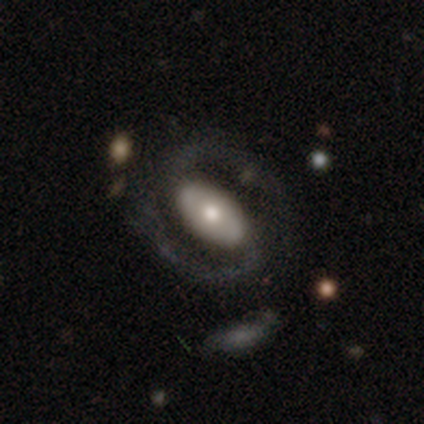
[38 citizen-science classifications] A featured or disk galaxy (82%) with a strong bar (47%), 2 (96%) medium (63%) spiral arms (90%) and a moderate central bulge (47%).

Vote fractions:
- Smooth or featured? featured or disk: 82% / smooth: 18% / star or artifact: 0%
- Edge-on disk? no: 97% / yes: 3%
- Bar? strong: 47% / no: 40% / weak: 13%
- Spiral arms? yes: 90% / no: 10%
- Spiral winding? medium: 63% / tight: 19% / loose: 19%
- Spiral arm count? 2: 96% / 1: 4% / 3: 0% / 4: 0% / more than 4: 0% / can't tell: 0%
- Bulge size? moderate: 47% / small: 33% / large: 17% / none: 3% / dominant: 0%
- Merging? none: 71% / major disturbance: 16% / merger: 11% / minor disturbance: 3%